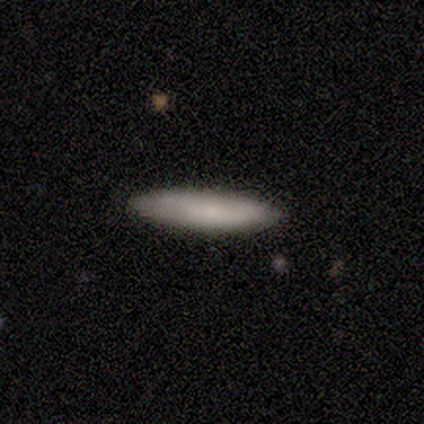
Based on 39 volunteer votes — smooth-or-featured: smooth: 82% | featured or disk: 18% | star or artifact: 0%
  how-rounded: cigar-shaped: 94% | in between: 6% | round: 0%
  merging: none: 85% | minor disturbance: 13% | merger: 3% | major disturbance: 0%